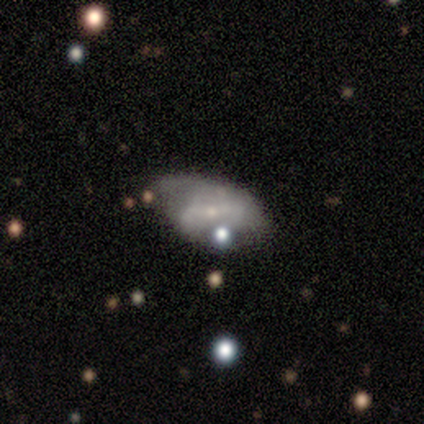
Morphology: type=featured or disk (70%); edge-on=no (100%); bar=strong (38%, tied with weak); spiral arms=yes (59%); winding=loose (52%); arm count=2 (57%); bulge=small (90%); merging=none (34%).